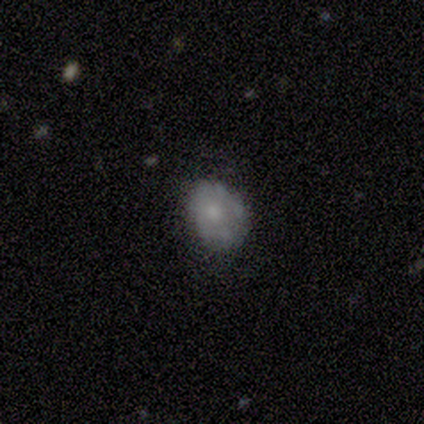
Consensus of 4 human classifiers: Smooth or featured: smooth — 75% (featured or disk — 25%)
How rounded: in between — 100%
Merging: none — 50% (tied with minor disturbance — 50%)